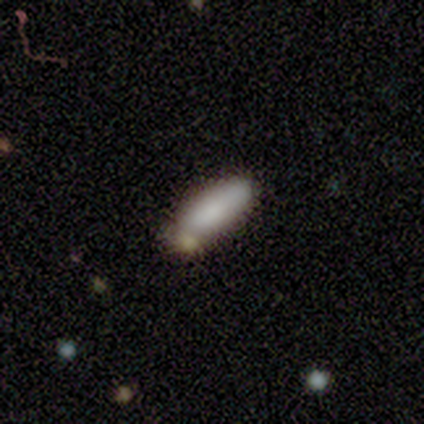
smooth 82%, featured or disk 16%, star or artifact 3%. Down the decision tree: how rounded — in between (58%); merging — none (32%).